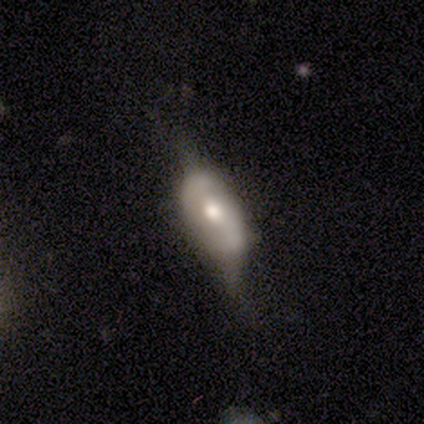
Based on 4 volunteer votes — This is likely a featured or disk galaxy (75%). It is clearly not viewed edge-on (100%). Bar: likely weak (67%). Spiral arm pattern: likely yes (67%). Spiral arm count: clearly 2 (100%). Spiral winding: possibly medium (50%, tied with loose). Central bulge: clearly moderate (100%). Merging: likely major disturbance (75%).